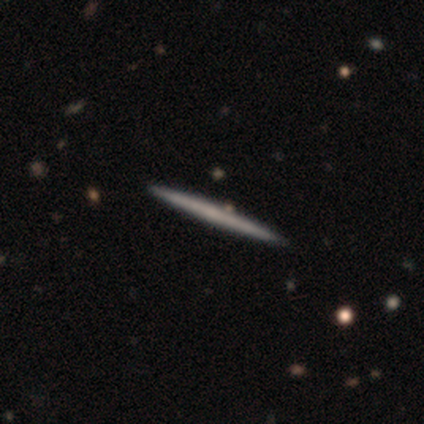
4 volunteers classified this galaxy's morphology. Smooth or featured: featured or disk — 75% (smooth — 25%)
Edge-on disk: yes — 100%
Edge-on bulge: none — 100%
Merging: none — 100%